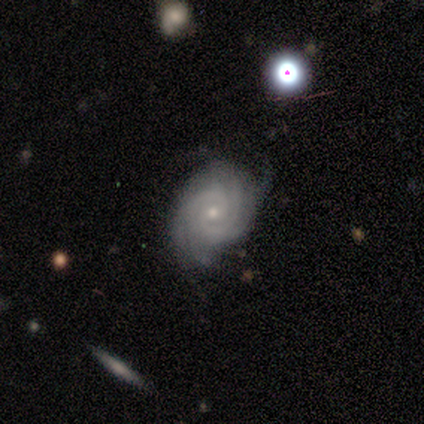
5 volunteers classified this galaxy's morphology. smooth-or-featured: featured or disk: 100% | smooth: 0% | star or artifact: 0%
  disk-edge-on: no: 100% | yes: 0%
    bar: no: 60% | strong: 20% | weak: 20%
    has-spiral-arms: yes: 100% | no: 0%
      spiral-winding: tight: 60% | medium: 20% | loose: 20%
      spiral-arm-count: 2: 40% (tied) | 3: 40% (tied) | can't tell: 20% | 1: 0% | 4: 0% | more than 4: 0%
    bulge-size: small: 60% | moderate: 40% | dominant: 0% | large: 0% | none: 0%
  merging: minor disturbance: 60% | none: 40% | major disturbance: 0% | merger: 0%